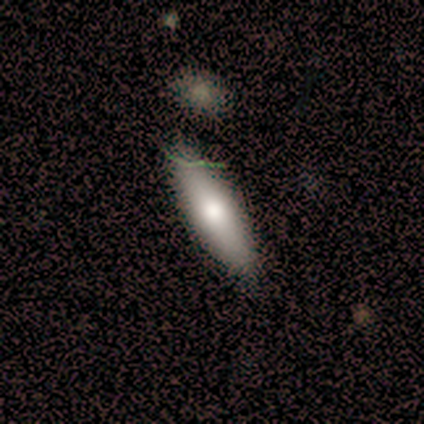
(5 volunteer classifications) Morphology: type=smooth (60%); roundness=in between (67%); merging=none (100%).